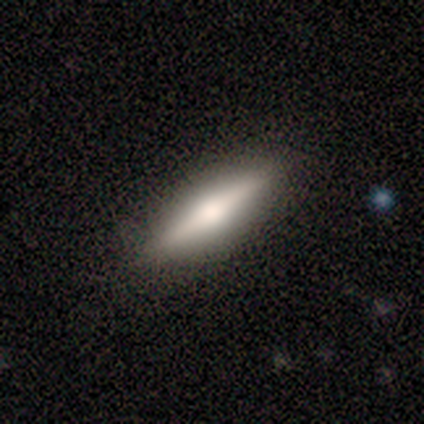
Overall: featured or disk (100%). Edge-on disk: yes (100%). Edge-on bulge: rounded (100%). Merging: none (100%).